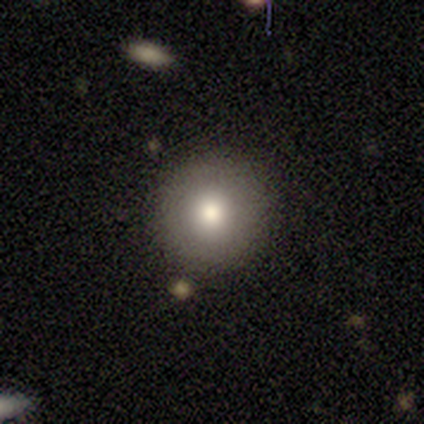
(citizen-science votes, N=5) Smooth or featured? smooth (60%)
How rounded? round (100%)
Merging? none (100%)